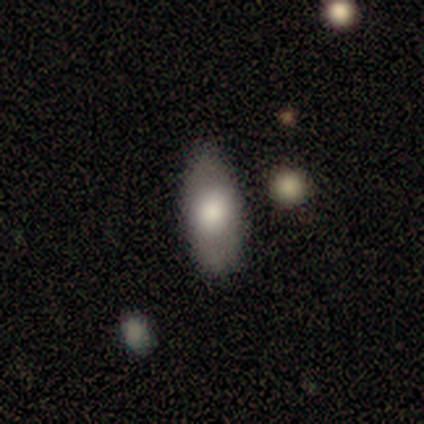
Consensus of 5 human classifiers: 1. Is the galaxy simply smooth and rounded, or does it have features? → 80% smooth, 20% featured or disk, 0% star or artifact.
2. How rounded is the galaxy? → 100% in between, 0% round, 0% cigar-shaped.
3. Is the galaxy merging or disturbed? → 60% none, 40% minor disturbance, 0% major disturbance, 0% merger.